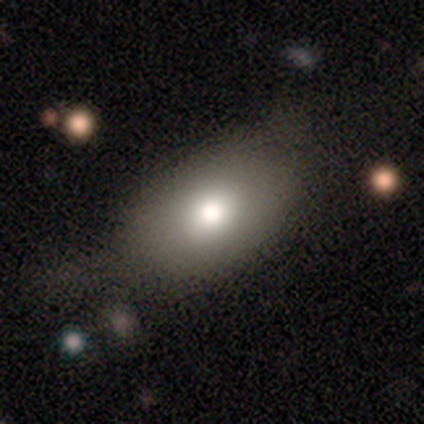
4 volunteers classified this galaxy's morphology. This is clearly a smooth galaxy (100%). How rounded: likely round (75%). Merging: likely none (75%).